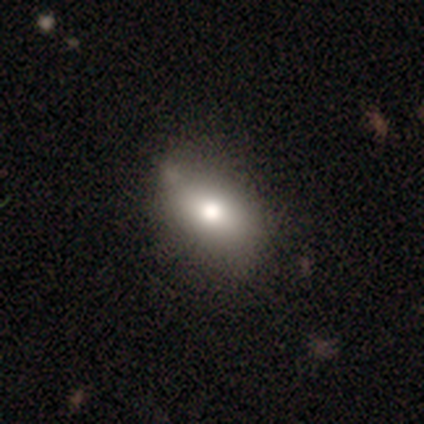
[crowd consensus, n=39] Smooth or featured? 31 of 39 (79%) said smooth. How rounded? 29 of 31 (94%) said in between. Merging? 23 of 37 (62%) said none.